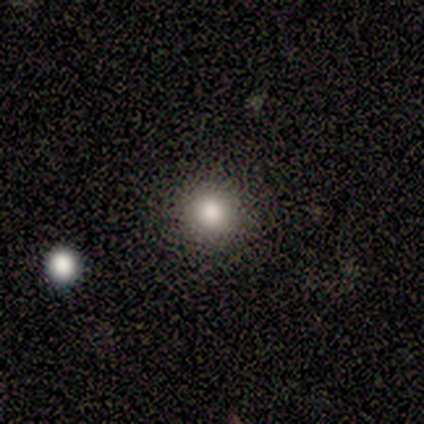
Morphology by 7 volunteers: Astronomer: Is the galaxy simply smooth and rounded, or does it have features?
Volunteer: smooth — 86%.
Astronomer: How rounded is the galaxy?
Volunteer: round — 100%.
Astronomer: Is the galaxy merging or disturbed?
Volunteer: none — 100%.